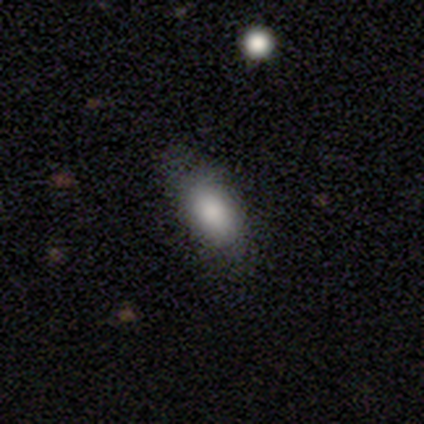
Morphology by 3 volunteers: This is clearly a smooth galaxy (100%). How rounded: clearly in between (100%). Merging: likely none (67%).